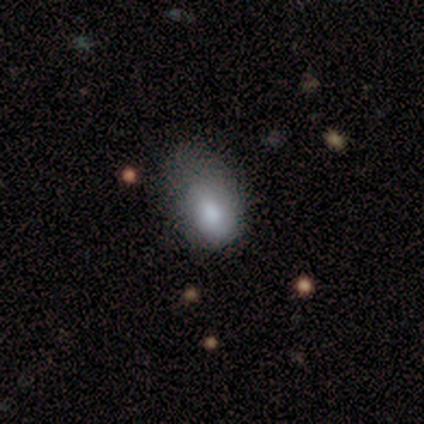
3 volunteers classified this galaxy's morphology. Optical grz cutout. It shows a smooth galaxy with no disk features (67%) that is in between round and cigar-shaped (100%). Merging: minor disturbance (50%, tied with major disturbance).